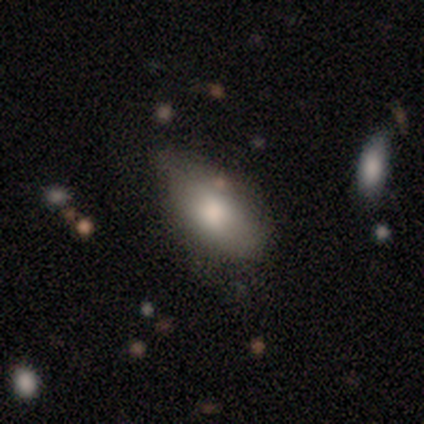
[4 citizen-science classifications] Morphology: type=smooth (50%, tied with featured or disk); roundness=in between (100%); merging=none (75%).